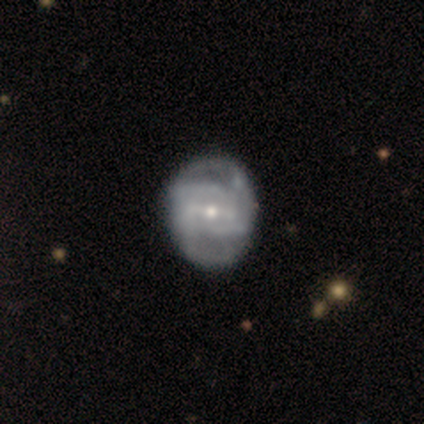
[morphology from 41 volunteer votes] Smooth or featured?
  - featured or disk: 93% *
  - smooth: 5%
  - star or artifact: 2%
Edge-on disk?
  - no: 97% *
  - yes: 3%
Bar?
  - strong: 57% *
  - weak: 32%
  - no: 11%
Spiral arms?
  - yes: 92% *
  - no: 8%
Spiral winding?
  - medium: 53% *
  - tight: 32%
  - loose: 15%
Spiral arm count?
  - can't tell: 35% *
  - 2: 29%
  - 4: 21%
  - 3: 15%
  - 1: 0%
  - more than 4: 0%
Bulge size?
  - small: 62% *
  - moderate: 35%
  - large: 3%
  - dominant: 0%
  - none: 0%
Merging?
  - none: 62% *
  - minor disturbance: 12%
  - major disturbance: 5%
  - merger: 0%